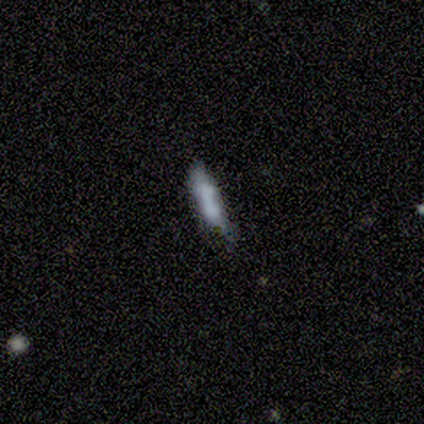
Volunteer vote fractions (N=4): Smooth or featured? smooth (75%)
How rounded? cigar-shaped (100%)
Merging? none (50%, tied with merger)